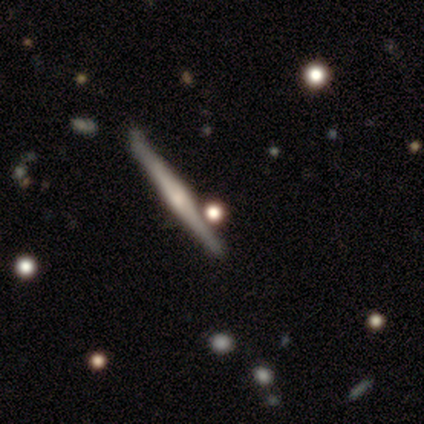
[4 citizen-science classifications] featured or disk 100%, smooth 0%, star or artifact 0%. Down the decision tree: edge-on disk — yes (100%); edge-on bulge — rounded (100%); merging — none (50%).